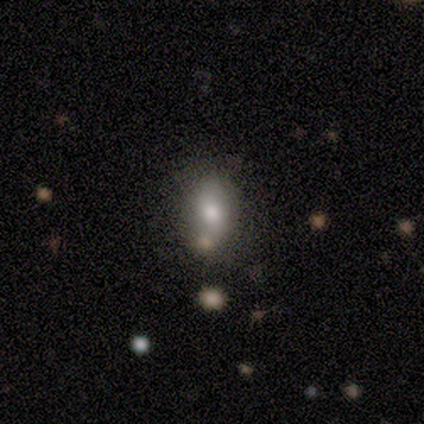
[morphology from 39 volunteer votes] A smooth galaxy with no disk features (82%) that is in between round and cigar-shaped (75%). Merging: none (73%).